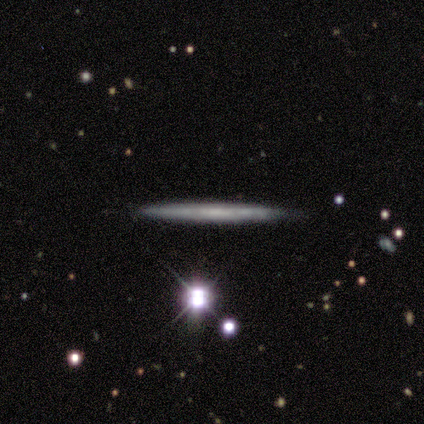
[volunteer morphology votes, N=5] A featured or disk galaxy (60%) viewed edge-on (100%) with no central bulge (100%).

Vote fractions:
- Smooth or featured? featured or disk: 60% / smooth: 40% / star or artifact: 0%
- Edge-on disk? yes: 100% / no: 0%
- Edge-on bulge? none: 100% / boxy: 0% / rounded: 0%
- Merging? none: 100% / minor disturbance: 0% / major disturbance: 0% / merger: 0%